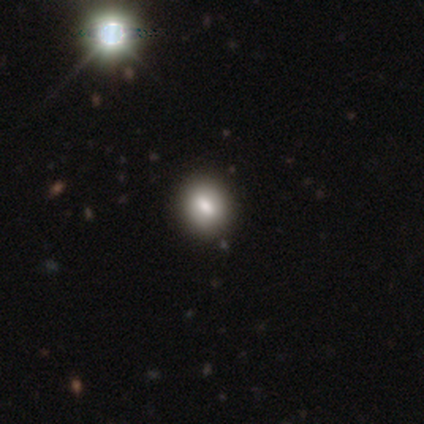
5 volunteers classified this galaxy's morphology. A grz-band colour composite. It shows a smooth galaxy with no disk features (100%) that is round (60%). Merging: none (80%).